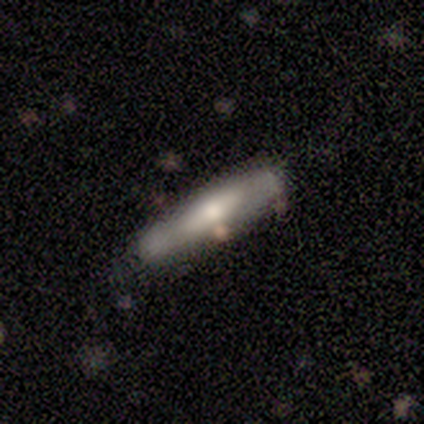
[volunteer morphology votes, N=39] smooth-or-featured: featured or disk: 51% | smooth: 44% | star or artifact: 5%
  disk-edge-on: yes: 80% | no: 20%
    edge-on-bulge: rounded: 56% | boxy: 38% | none: 6%
  merging: none: 70% | minor disturbance: 27% | merger: 3% | major disturbance: 0%